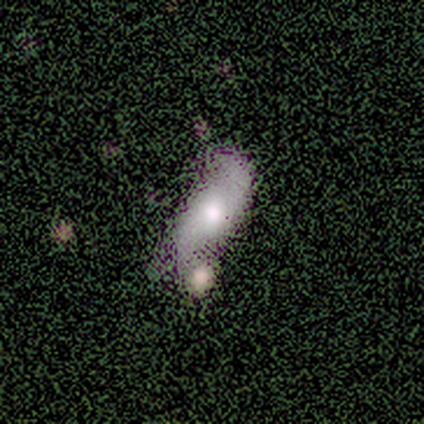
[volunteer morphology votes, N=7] A featured or disk galaxy (57%) with no bar (67%), 2 (50%, tied with can't tell) medium (50%, tied with loose) spiral arms (67%) and a moderate central bulge (67%).

Vote fractions:
- Smooth or featured? featured or disk: 57% / smooth: 29% / star or artifact: 14%
- Edge-on disk? no: 75% / yes: 25%
- Bar? no: 67% / weak: 33% / strong: 0%
- Spiral arms? yes: 67% / no: 33%
- Spiral winding? medium: 50% (tied) / loose: 50% (tied) / tight: 0%
- Spiral arm count? 2: 50% (tied) / can't tell: 50% (tied) / 1: 0% / 3: 0% / 4: 0% / more than 4: 0%
- Bulge size? moderate: 67% / small: 33% / dominant: 0% / large: 0% / none: 0%
- Merging? major disturbance: 33% (tied) / merger: 33% (tied) / none: 17% / minor disturbance: 17%